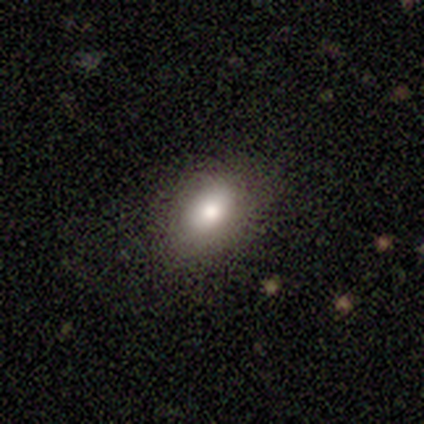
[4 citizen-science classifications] Smooth or featured? 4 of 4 (100%) said smooth. How rounded? 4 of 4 (100%) said in between. Merging? 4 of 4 (100%) said none.